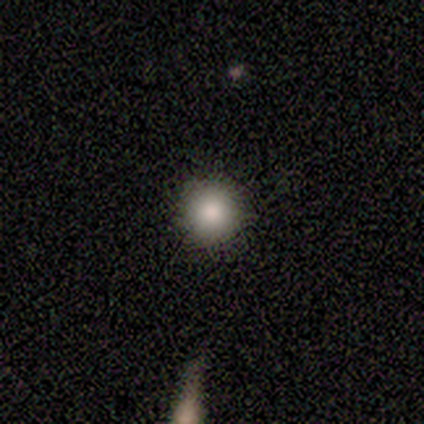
A smooth galaxy with no disk features (80%) that is round (100%). Merging: none (100%).